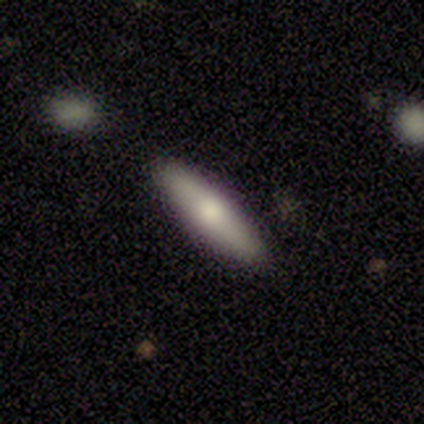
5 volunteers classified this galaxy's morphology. type=smooth (80%); roundness=cigar-shaped (75%); merging=none (80%).